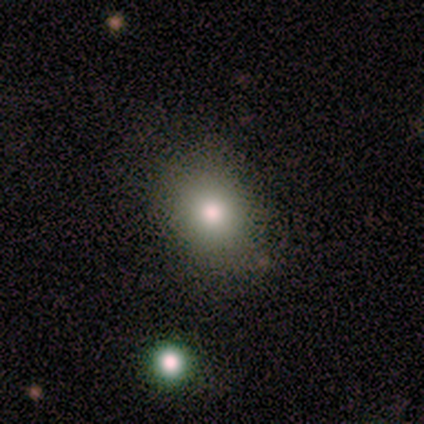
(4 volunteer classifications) Volunteers were most divided on "how rounded" (2-way tie): round: 50%, in between: 50%, cigar-shaped: 0%. More confident: smooth or featured — smooth (100%); merging — none (100%).